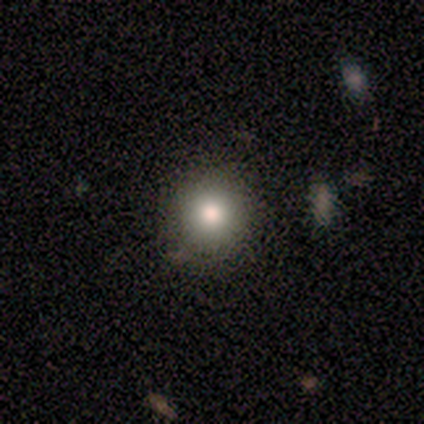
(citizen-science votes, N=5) Volunteers were most divided on "how rounded": round: 80%, in between: 20%, cigar-shaped: 0%. More confident: smooth or featured — smooth (100%); merging — none (100%).